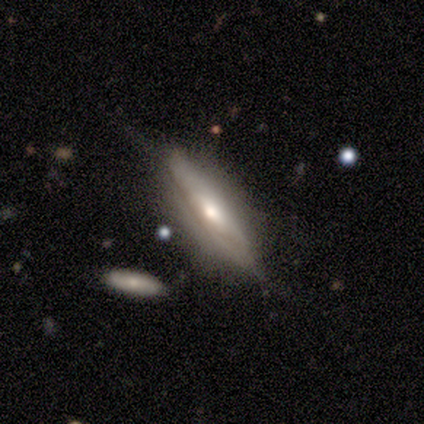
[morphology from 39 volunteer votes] Smooth or featured? 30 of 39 (77%) said featured or disk. Edge-on disk? 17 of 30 (57%) said yes. Edge-on bulge? 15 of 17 (88%) said rounded. Merging? 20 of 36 (56%) said none.